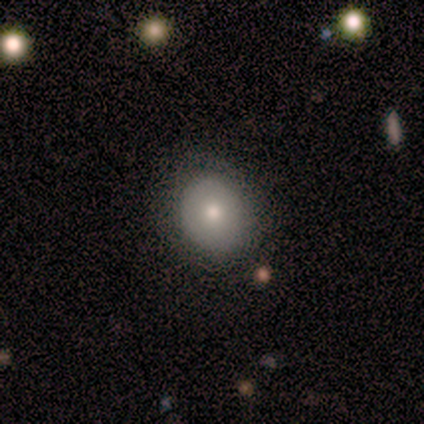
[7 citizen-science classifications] Volunteers were most divided on "how rounded" (2-way tie): round: 50%, in between: 50%, cigar-shaped: 0%; "merging" (2-way tie): none: 50%, minor disturbance: 50%, major disturbance: 0%, merger: 0%. More confident: smooth or featured — smooth (57%).